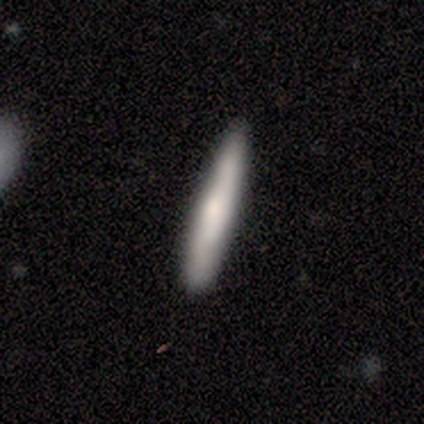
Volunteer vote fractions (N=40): This is possibly a smooth galaxy (55%). How rounded: clearly cigar-shaped (95%). Merging: clearly none (95%).